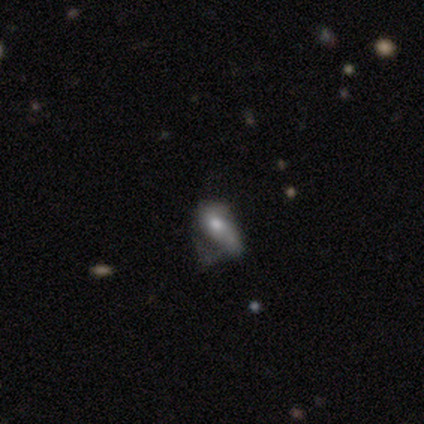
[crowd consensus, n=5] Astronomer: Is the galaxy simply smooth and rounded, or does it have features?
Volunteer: featured or disk — 80%.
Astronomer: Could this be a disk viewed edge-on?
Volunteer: no — 100%.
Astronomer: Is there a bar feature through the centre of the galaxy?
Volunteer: no — 100%.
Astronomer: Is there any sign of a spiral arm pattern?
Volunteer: no — 75%.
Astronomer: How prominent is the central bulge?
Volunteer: moderate — 75%.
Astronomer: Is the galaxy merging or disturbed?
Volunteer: major disturbance — 80%.